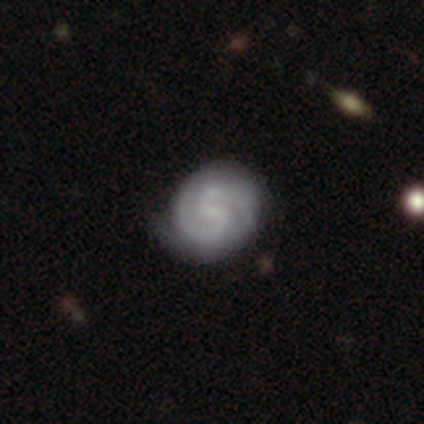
This is clearly a featured or disk galaxy (86%). It is clearly not viewed edge-on (99%). Bar: possibly weak (54%). Spiral arm pattern: clearly yes (92%). Spiral arm count: clearly 2 (90%). Spiral winding: possibly medium (50%). Central bulge: likely small (62%). Merging: likely none (75%).